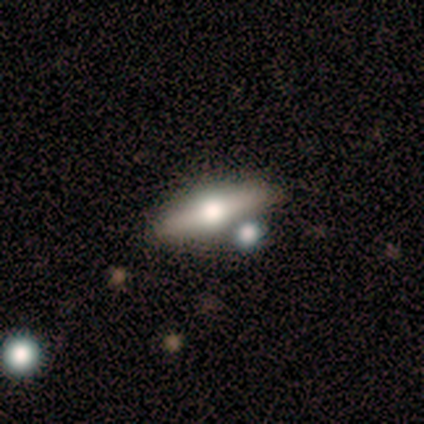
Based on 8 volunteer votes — Volunteers were most divided on "smooth or featured": featured or disk: 75%, smooth: 25%, star or artifact: 0%. More confident: edge-on disk — yes (100%); edge-on bulge — rounded (100%); merging — none (88%).